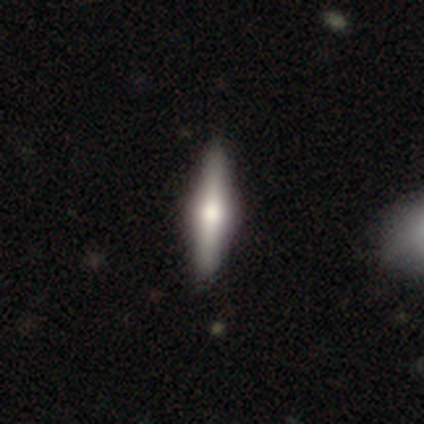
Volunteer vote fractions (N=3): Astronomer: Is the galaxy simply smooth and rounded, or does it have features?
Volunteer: featured or disk — 100%.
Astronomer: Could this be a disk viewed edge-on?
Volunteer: yes — 100%.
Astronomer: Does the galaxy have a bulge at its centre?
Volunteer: rounded — 67%.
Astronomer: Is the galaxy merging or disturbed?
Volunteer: none — 100%.